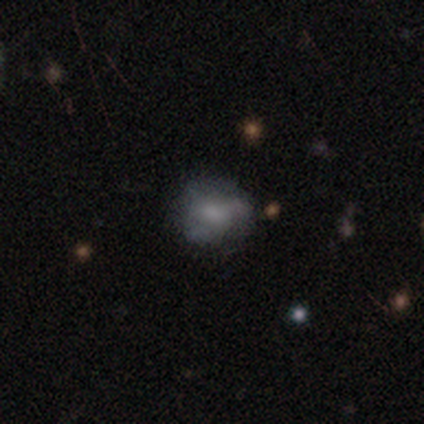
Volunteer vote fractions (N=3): Volunteers were most divided on "smooth or featured": smooth: 67%, featured or disk: 33%, star or artifact: 0%. More confident: how rounded — round (100%); merging — none (67%).